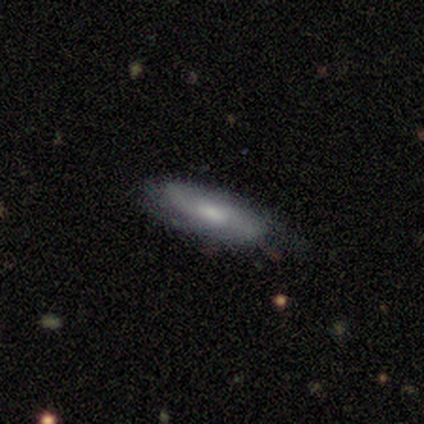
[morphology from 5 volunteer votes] This is likely a smooth galaxy (60%). How rounded: likely in between (67%). Merging: likely none (60%).